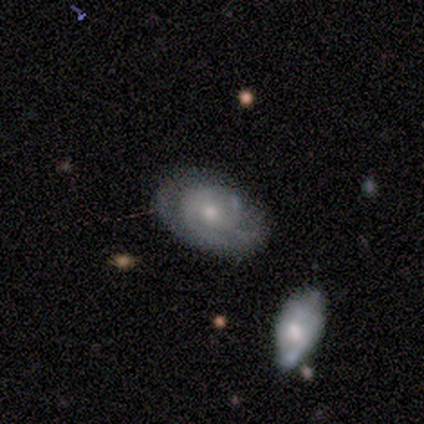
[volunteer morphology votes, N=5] Overall: featured or disk (80%). Edge-on disk: no (100%). Bar: no (100%). Spiral arms: yes (75%). Spiral arm count: 2 (67%; can't tell 33%). Spiral winding: tight (100%). Bulge size: moderate (75%). Merging: none (80%).